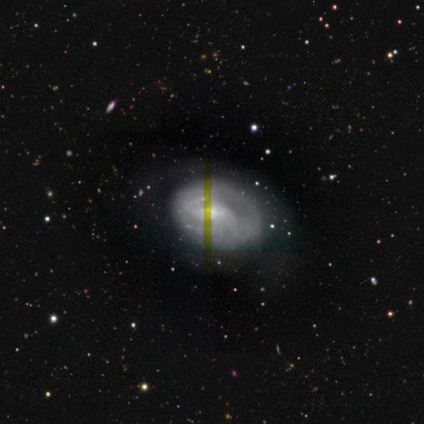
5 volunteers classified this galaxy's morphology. A smooth galaxy with no disk features (40%, tied with featured or disk) that is in between round and cigar-shaped (100%). Merging: none (100%).